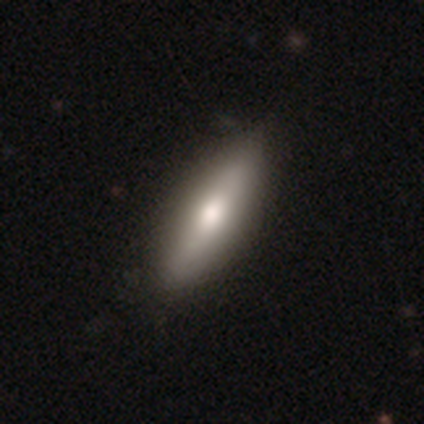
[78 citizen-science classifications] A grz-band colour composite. It shows a smooth galaxy with no disk features (60%) that is in between round and cigar-shaped (57%). Merging: none (42%).